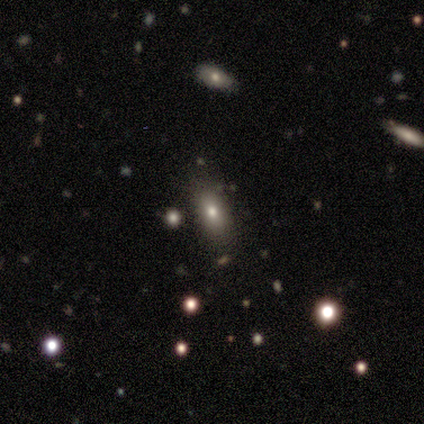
This is clearly a smooth galaxy (80%). How rounded: possibly in between (50%). Merging: likely none (60%).